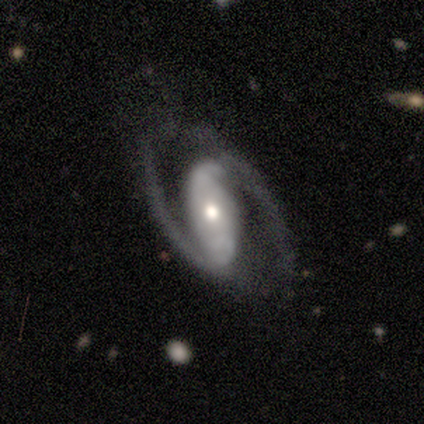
Overall: featured or disk (100%). Edge-on disk: no (100%). Bar: weak (100%). Spiral arms: yes (100%). Spiral arm count: 2 (100%). Spiral winding: medium (60%; loose 40%). Bulge size: moderate (80%). Merging: none (100%).